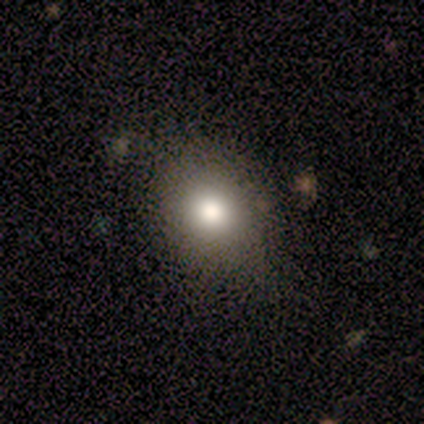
smooth 80%, featured or disk 10%, star or artifact 10%. Down the decision tree: how rounded — round (75%); merging — none (89%).